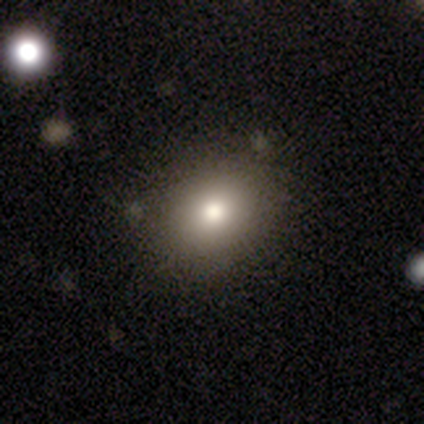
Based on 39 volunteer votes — This appears to be a smooth galaxy with no disk features (72%) that is in between round and cigar-shaped (64%). Merging: none (82%).